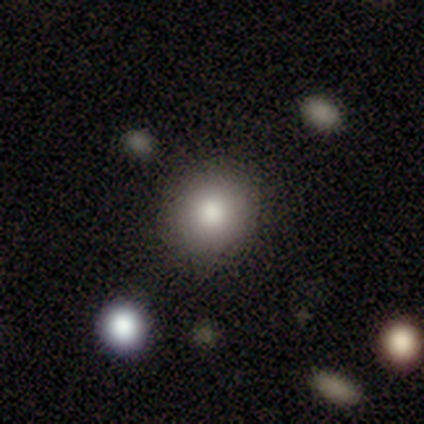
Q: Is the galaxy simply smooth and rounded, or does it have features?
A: smooth — 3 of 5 (60%).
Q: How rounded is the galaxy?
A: round — 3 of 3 (100%).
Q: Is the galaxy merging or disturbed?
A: none — 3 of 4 (75%).